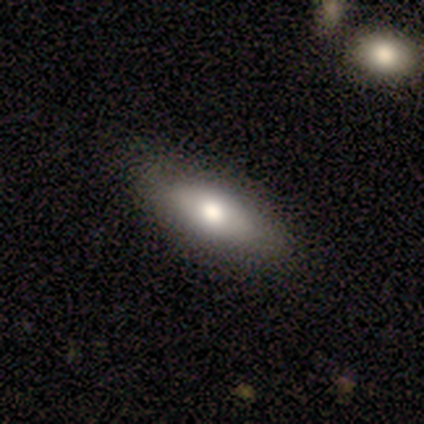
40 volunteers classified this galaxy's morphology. Smooth or featured? 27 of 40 (68%) said smooth. How rounded? 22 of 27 (81%) said in between. Merging? 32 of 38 (84%) said none.